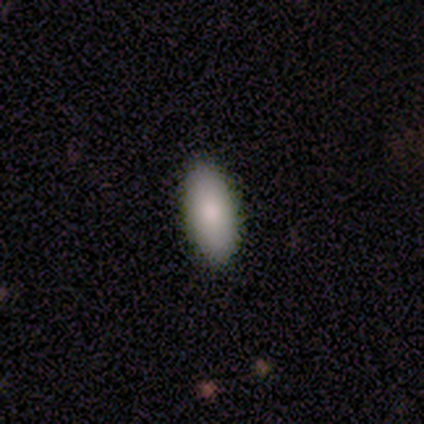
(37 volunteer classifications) Morphology: type=smooth (86%); roundness=in between (97%); merging=none (89%).